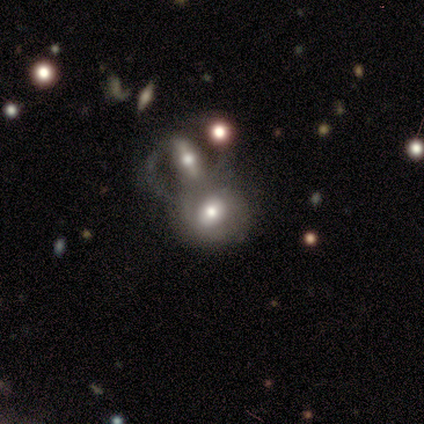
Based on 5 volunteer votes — Morphology: type=featured or disk (80%); edge-on=no (100%); bar=weak (50%); spiral arms=no (75%); bulge=moderate (100%); merging=none (60%).